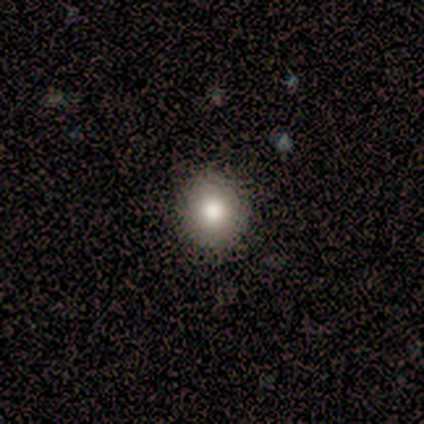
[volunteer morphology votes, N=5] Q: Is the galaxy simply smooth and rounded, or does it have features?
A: smooth — 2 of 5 (40%, tied with featured or disk).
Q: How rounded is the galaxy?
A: round — 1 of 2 (50%, tied with in between).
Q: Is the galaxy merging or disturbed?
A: none — 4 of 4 (100%).